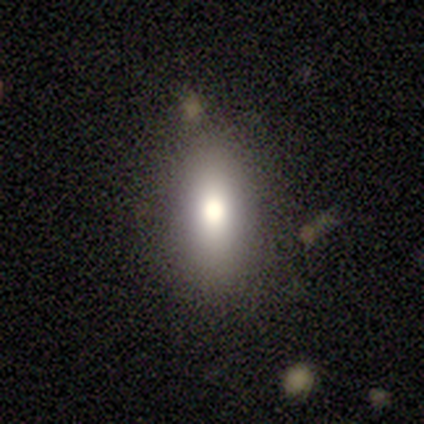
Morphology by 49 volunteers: smooth-or-featured: smooth: 90% | featured or disk: 8% | star or artifact: 2%
  how-rounded: in between: 86% | cigar-shaped: 9% | round: 5%
  merging: none: 90% | minor disturbance: 6% | major disturbance: 2% | merger: 2%